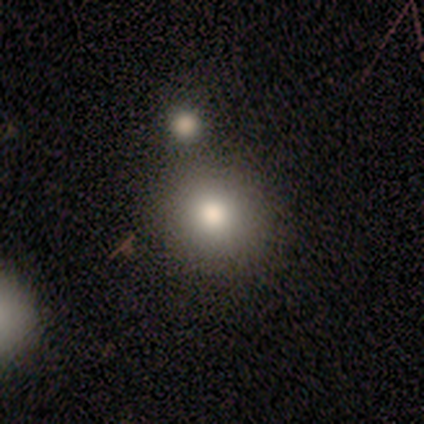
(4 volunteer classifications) Morphology: type=smooth (75%); roundness=round (100%); merging=none (67%).